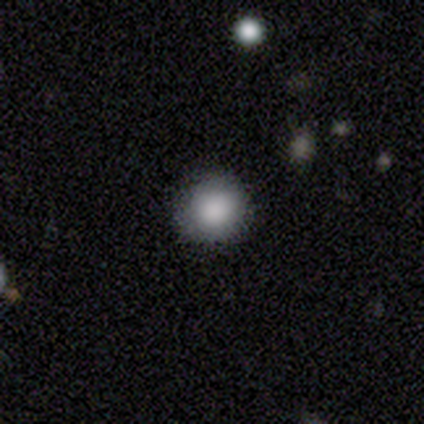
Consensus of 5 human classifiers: smooth 100%, featured or disk 0%, star or artifact 0%. Down the decision tree: how rounded — round (80%); merging — none (80%).